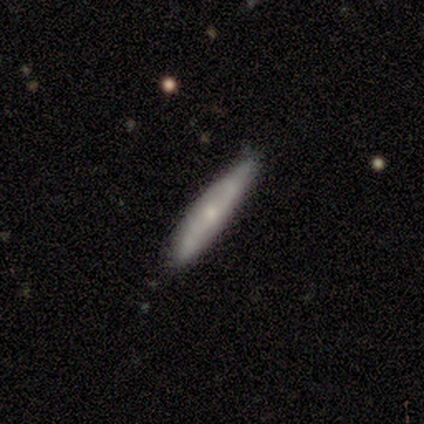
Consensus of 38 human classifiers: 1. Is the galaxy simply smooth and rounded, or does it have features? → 50% smooth, 45% featured or disk, 5% star or artifact.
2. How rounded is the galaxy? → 95% cigar-shaped, 5% in between, 0% round.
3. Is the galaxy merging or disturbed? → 92% none, 6% minor disturbance, 3% major disturbance, 0% merger.